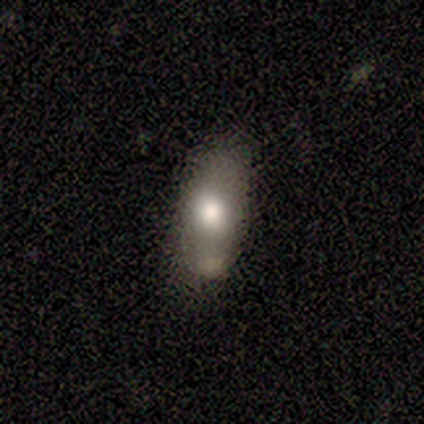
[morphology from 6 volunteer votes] A smooth galaxy with no disk features (83%) that is in between round and cigar-shaped (100%).

Vote fractions:
- Smooth or featured? smooth: 83% / featured or disk: 17% / star or artifact: 0%
- How rounded? in between: 100% / round: 0% / cigar-shaped: 0%
- Merging? none: 33% (tied) / minor disturbance: 33% (tied) / major disturbance: 17% / merger: 17%